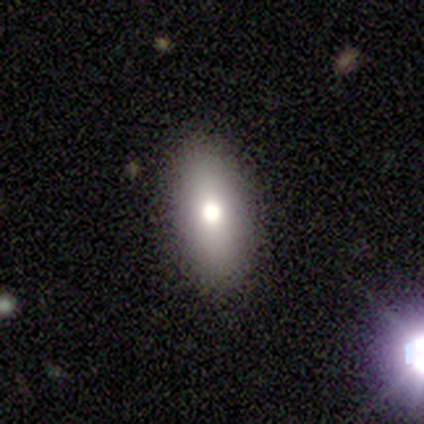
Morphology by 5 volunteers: smooth_or_featured: smooth (p=1.00)
how_rounded: in between (p=0.80) [alt: round p=0.20]
merging: none (p=1.00)